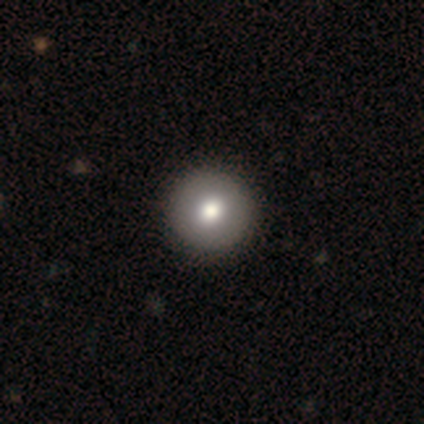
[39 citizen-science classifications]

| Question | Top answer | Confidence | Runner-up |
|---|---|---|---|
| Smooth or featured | smooth | 82% | star or artifact (10%) |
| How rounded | round | 97% | in between (3%) |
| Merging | none | 66% | minor disturbance (3%) |